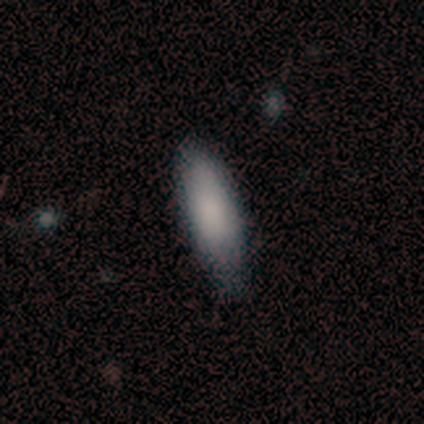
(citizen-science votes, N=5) A smooth galaxy with no disk features (100%) that is in between round and cigar-shaped (80%).

Vote fractions:
- Smooth or featured? smooth: 100% / featured or disk: 0% / star or artifact: 0%
- How rounded? in between: 80% / cigar-shaped: 20% / round: 0%
- Merging? none: 40% (tied) / minor disturbance: 40% (tied) / major disturbance: 20% / merger: 0%